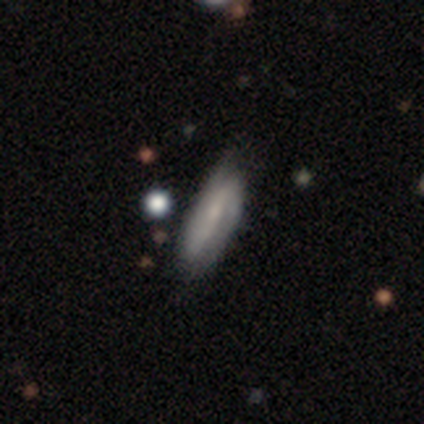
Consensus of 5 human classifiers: A featured or disk galaxy (100%) with a weak bar (50%), 2 (75%) loose (50%) spiral arms (100%) and a small central bulge (50%). Merging: none (80%).